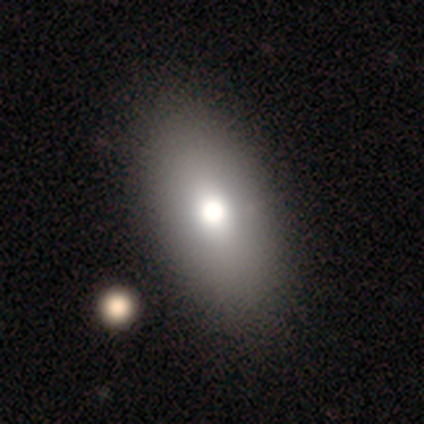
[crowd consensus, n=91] smooth_or_featured: smooth (p=0.77) [alt: featured or disk p=0.13]
how_rounded: in between (p=0.84) [alt: round p=0.10]
merging: none (p=0.79) [alt: minor disturbance p=0.12]